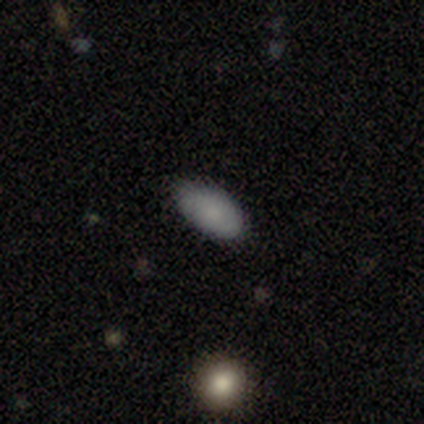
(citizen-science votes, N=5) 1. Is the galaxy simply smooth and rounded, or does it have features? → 60% featured or disk, 40% smooth, 0% star or artifact.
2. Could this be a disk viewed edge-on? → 100% no, 0% yes.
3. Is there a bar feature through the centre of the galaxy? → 67% no, 33% strong, 0% weak.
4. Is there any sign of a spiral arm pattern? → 67% no, 33% yes.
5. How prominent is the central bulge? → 67% none, 33% small, 0% dominant, 0% large, 0% moderate.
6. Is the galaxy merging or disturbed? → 80% none, 20% minor disturbance, 0% major disturbance, 0% merger.